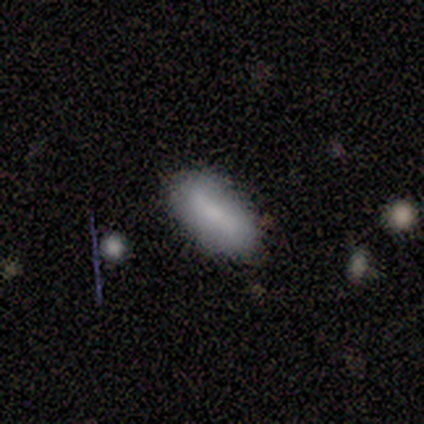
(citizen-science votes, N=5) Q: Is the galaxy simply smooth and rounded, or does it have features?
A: smooth — 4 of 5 (80%).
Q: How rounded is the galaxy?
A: in between — 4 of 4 (100%).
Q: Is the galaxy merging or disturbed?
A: none — 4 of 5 (80%).